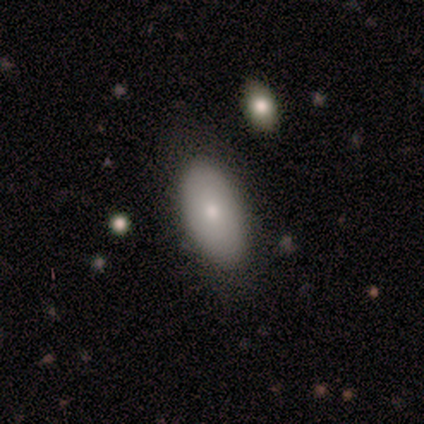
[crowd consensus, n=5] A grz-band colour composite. It shows a smooth galaxy with no disk features (60%) that is in between round and cigar-shaped (100%). Merging: none (75%).